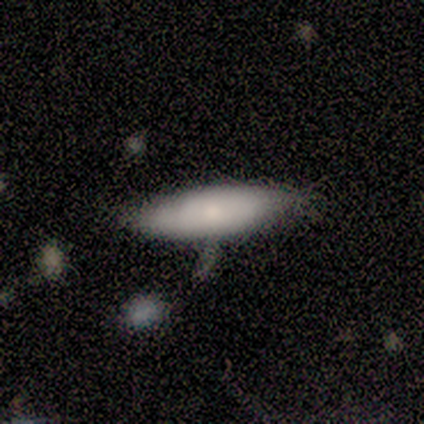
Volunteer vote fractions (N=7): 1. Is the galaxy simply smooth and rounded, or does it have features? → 71% smooth, 29% featured or disk, 0% star or artifact.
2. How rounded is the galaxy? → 60% cigar-shaped, 40% in between, 0% round.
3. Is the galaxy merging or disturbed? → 100% none, 0% minor disturbance, 0% major disturbance, 0% merger.